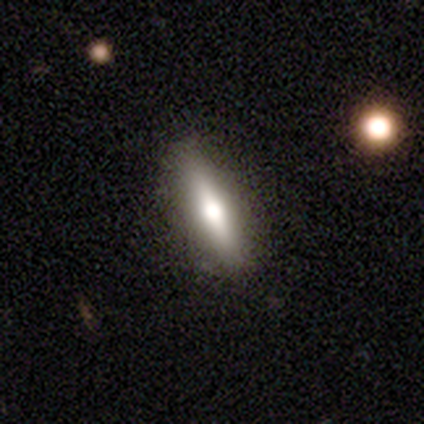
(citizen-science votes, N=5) Overall: featured or disk (60%; smooth 40%). Edge-on disk: yes (100%). Edge-on bulge: rounded (67%; none 33%). Merging: none (80%).